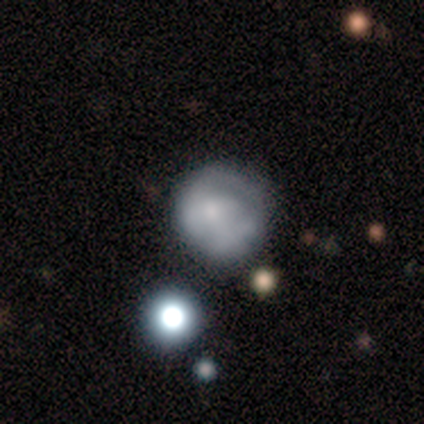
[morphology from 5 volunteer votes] Smooth or featured? smooth (40%, tied with featured or disk)
How rounded? round (50%, tied with in between)
Merging? minor disturbance (50%)